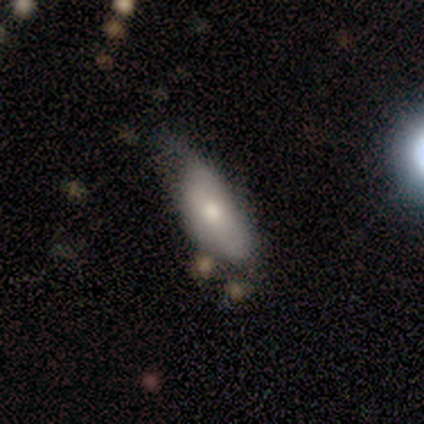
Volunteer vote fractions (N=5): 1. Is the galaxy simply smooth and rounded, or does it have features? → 80% smooth, 20% featured or disk, 0% star or artifact.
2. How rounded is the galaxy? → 100% in between, 0% round, 0% cigar-shaped.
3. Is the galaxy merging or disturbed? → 60% none, 40% minor disturbance, 0% major disturbance, 0% merger.